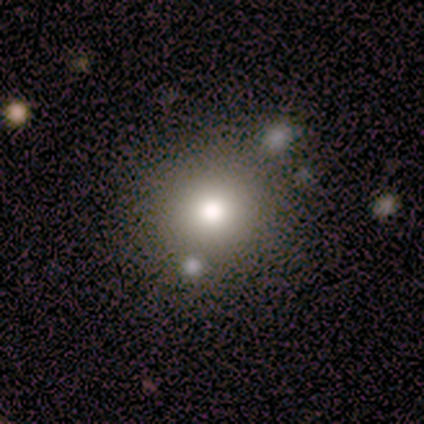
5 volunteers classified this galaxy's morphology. This is clearly a smooth galaxy (80%). How rounded: clearly round (100%). Merging: likely none (75%).